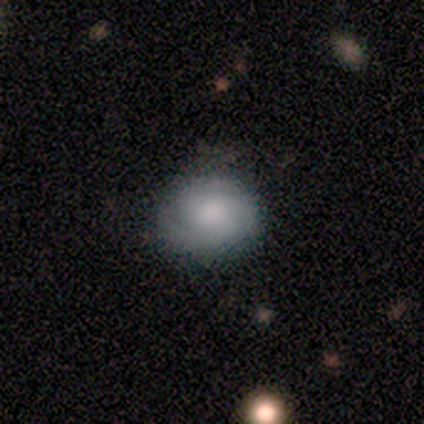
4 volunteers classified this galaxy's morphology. smooth_or_featured: smooth (p=0.50) [alt: featured or disk p=0.25]
how_rounded: round (p=0.50) [tied with: in between p=0.50]
merging: none (p=0.67) [alt: minor disturbance p=0.33]